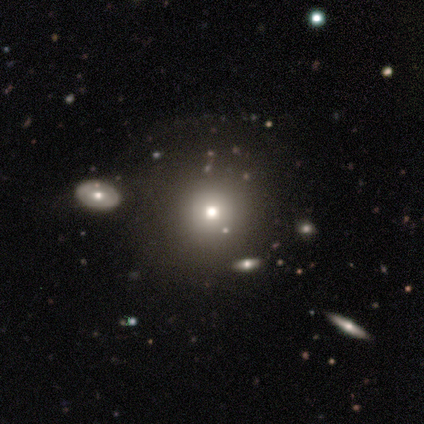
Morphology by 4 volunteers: This is likely a smooth galaxy (75%). How rounded: likely round (67%). Merging: possibly none (50%).